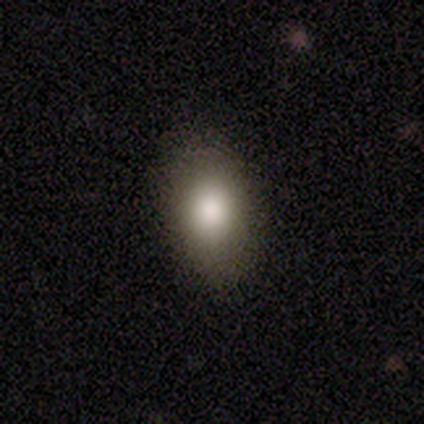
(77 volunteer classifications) Smooth or featured? 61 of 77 (79%) said smooth. How rounded? 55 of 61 (90%) said in between. Merging? 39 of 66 (59%) said none.